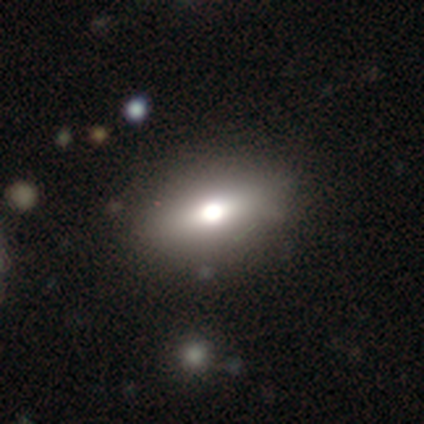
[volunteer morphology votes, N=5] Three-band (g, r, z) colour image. It shows a smooth galaxy with no disk features (60%) that is in between round and cigar-shaped (100%). Merging: none (75%).